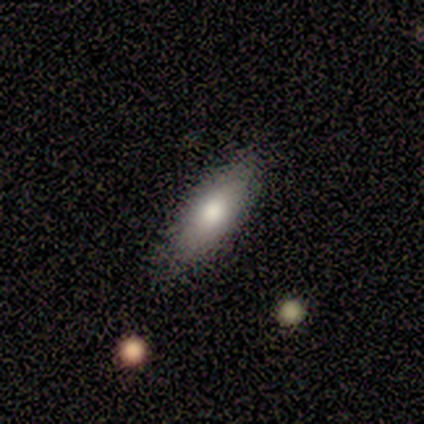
This appears to be a smooth galaxy with no disk features (50%) that is in between round and cigar-shaped (100%). Merging: none (80%).